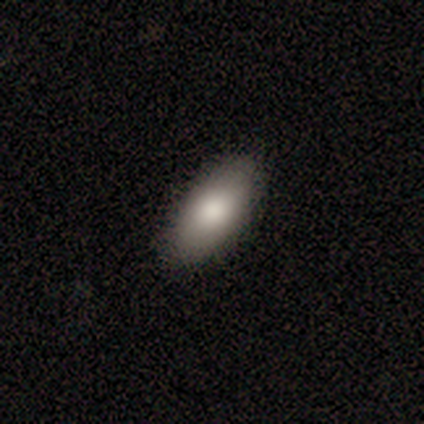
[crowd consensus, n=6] smooth_or_featured: smooth (p=1.00)
how_rounded: in between (p=1.00)
merging: none (p=0.83) [alt: minor disturbance p=0.17]